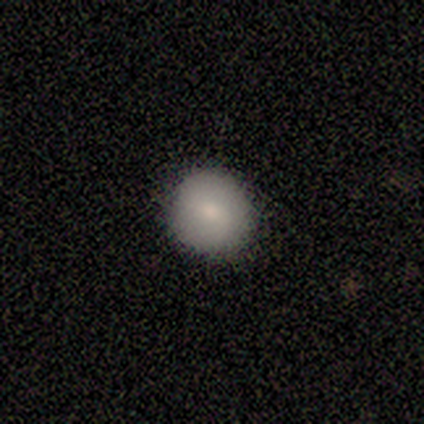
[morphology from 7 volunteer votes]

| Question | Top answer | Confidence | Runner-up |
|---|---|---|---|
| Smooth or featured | smooth | 57% | star or artifact (29%) |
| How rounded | round | 100% | — |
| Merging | none | 80% | minor disturbance (20%) |